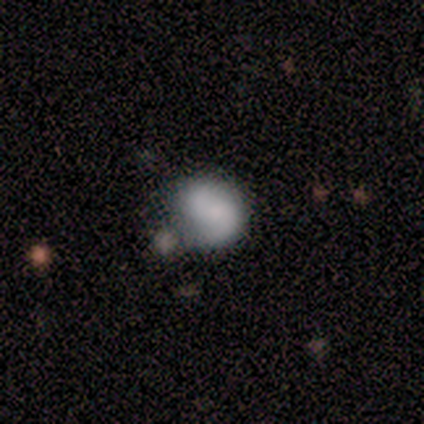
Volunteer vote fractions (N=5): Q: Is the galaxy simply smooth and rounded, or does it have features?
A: smooth — 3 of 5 (60%).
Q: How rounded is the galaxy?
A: round — 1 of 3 (33%, tied with in between and cigar-shaped).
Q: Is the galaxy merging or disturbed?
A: none — 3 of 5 (60%).